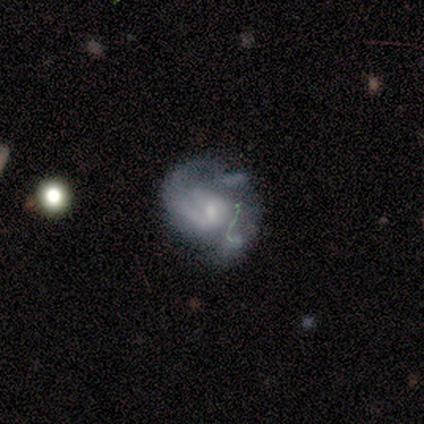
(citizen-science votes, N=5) A featured or disk galaxy (80%) with a weak bar (50%, tied with no), 2 (100%) medium (67%) spiral arms (75%) and a small central bulge (75%). Merging: none (40%, tied with minor disturbance).